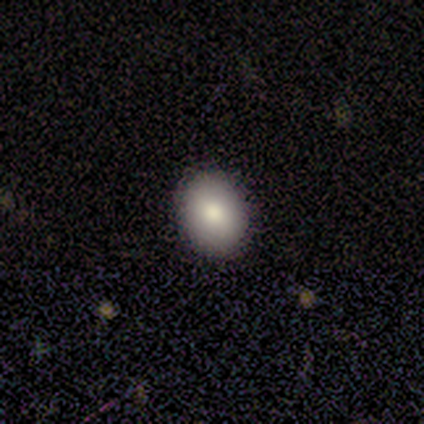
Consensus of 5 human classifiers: A smooth galaxy with no disk features (100%) that is in between round and cigar-shaped (60%).

Vote fractions:
- Smooth or featured? smooth: 100% / featured or disk: 0% / star or artifact: 0%
- How rounded? in between: 60% / round: 40% / cigar-shaped: 0%
- Merging? none: 100% / minor disturbance: 0% / major disturbance: 0% / merger: 0%